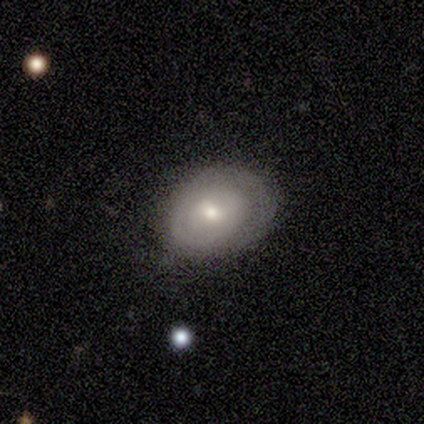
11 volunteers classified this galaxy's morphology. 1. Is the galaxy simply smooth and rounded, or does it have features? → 55% smooth, 27% featured or disk, 18% star or artifact.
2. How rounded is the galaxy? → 67% in between, 33% round, 0% cigar-shaped.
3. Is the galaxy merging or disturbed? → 44% minor disturbance, 33% none, 22% major disturbance, 0% merger.